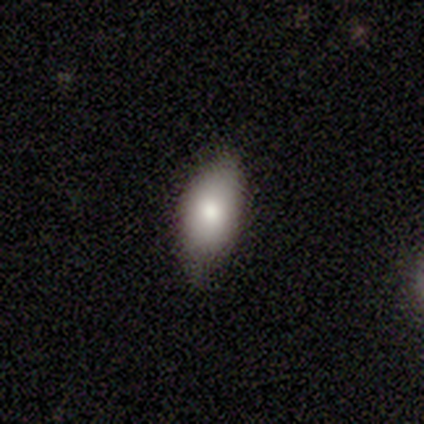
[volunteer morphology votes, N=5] smooth_or_featured: smooth (p=0.60) [alt: featured or disk p=0.20]
how_rounded: in between (p=1.00)
merging: none (p=1.00)